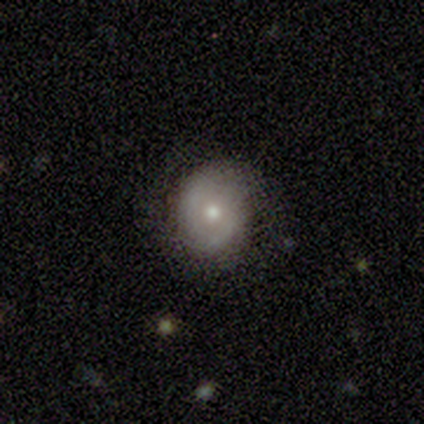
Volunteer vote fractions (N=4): featured or disk 50%, smooth 25%, star or artifact 25%. Down the decision tree: edge-on disk — no (100%); bar — no (100%); spiral arms — yes (100%); spiral arm count — 2 (50%, tied with can't tell); spiral winding — tight (50%, tied with medium); bulge size — moderate (100%); merging — minor disturbance (67%).